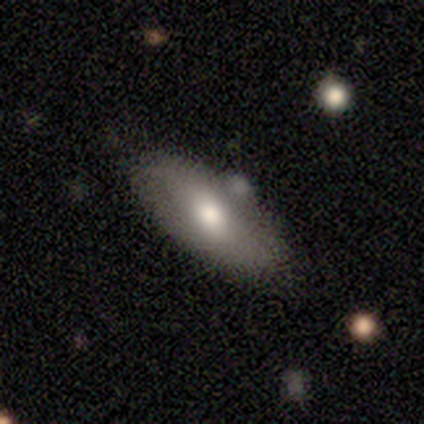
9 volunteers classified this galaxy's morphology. smooth-or-featured: smooth: 78% | featured or disk: 22% | star or artifact: 0%
  how-rounded: in between: 86% | round: 14% | cigar-shaped: 0%
  merging: none: 56% | minor disturbance: 22% | major disturbance: 11% | merger: 11%